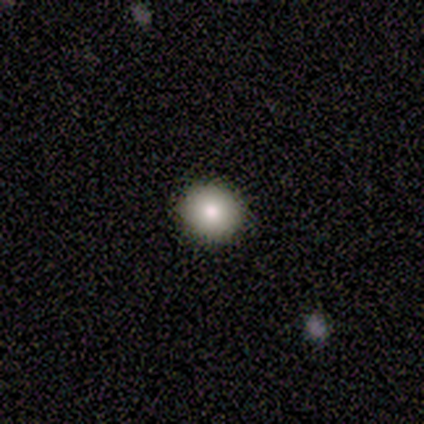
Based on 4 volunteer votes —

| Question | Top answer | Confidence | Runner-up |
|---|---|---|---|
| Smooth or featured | smooth | 75% | featured or disk (25%) |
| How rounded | round | 100% | — |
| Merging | none | 100% | — |